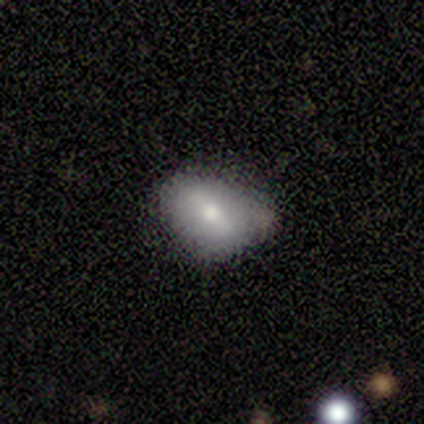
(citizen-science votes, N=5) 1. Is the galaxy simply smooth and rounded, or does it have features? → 60% smooth, 40% featured or disk, 0% star or artifact.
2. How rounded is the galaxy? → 67% in between, 33% round, 0% cigar-shaped.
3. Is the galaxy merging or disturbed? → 40% none (tied), 40% minor disturbance (tied), 20% merger, 0% major disturbance.